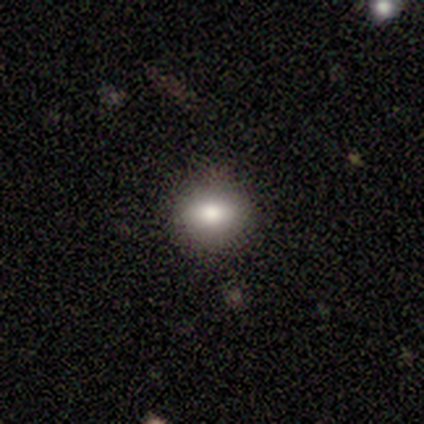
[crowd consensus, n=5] smooth 100%, featured or disk 0%, star or artifact 0%. Down the decision tree: how rounded — in between (60%); merging — none (100%).